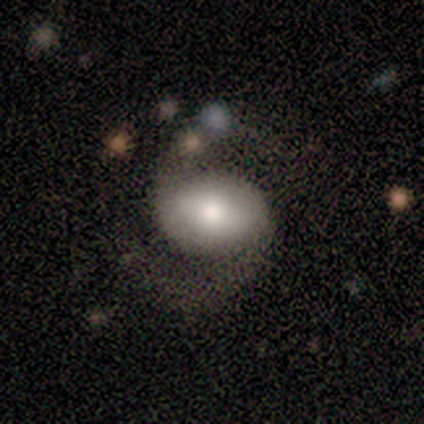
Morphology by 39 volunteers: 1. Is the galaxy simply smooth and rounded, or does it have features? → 69% featured or disk, 26% smooth, 5% star or artifact.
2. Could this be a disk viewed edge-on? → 100% no, 0% yes.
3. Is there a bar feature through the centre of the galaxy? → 41% no, 33% weak, 26% strong.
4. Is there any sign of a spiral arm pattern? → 100% yes, 0% no.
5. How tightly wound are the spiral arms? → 52% loose, 44% medium, 4% tight.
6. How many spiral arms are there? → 93% 2, 4% 1, 4% can't tell, 0% 3, 0% 4, 0% more than 4.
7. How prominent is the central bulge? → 48% moderate, 30% large, 11% small, 7% dominant, 4% none.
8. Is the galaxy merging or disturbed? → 76% none, 16% minor disturbance, 8% major disturbance, 0% merger.